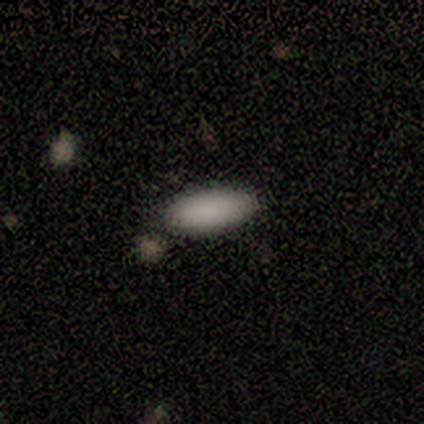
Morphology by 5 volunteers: This appears to be a smooth galaxy with no disk features (100%) that is in between round and cigar-shaped (60%). Merging: none (100%).